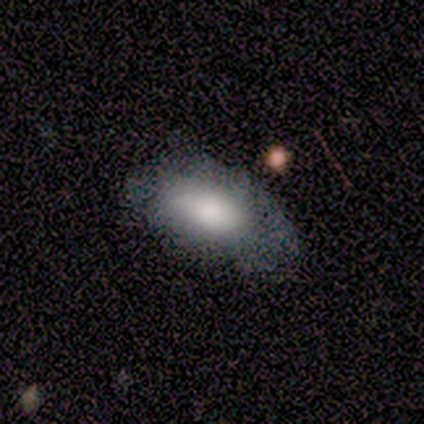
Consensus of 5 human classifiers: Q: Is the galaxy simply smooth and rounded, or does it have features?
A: smooth — 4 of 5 (80%).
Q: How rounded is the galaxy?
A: in between — 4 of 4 (100%).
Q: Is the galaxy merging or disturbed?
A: minor disturbance — 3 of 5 (60%).